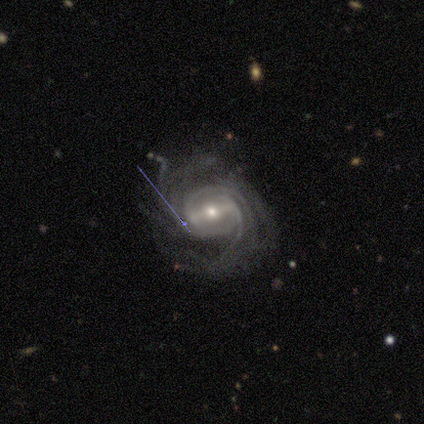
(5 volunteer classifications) smooth_or_featured: featured or disk (p=0.80) [alt: smooth p=0.20]
disk_edge_on: no (p=1.00)
bar: strong (p=0.75) [alt: no p=0.25]
has_spiral_arms: yes (p=1.00)
spiral_winding: tight (p=0.75) [alt: medium p=0.25]
spiral_arm_count: can't tell (p=0.50) [alt: 2 p=0.25]
bulge_size: large (p=0.50) [tied with: small p=0.50]
merging: none (p=0.40) [tied with: major disturbance p=0.40]